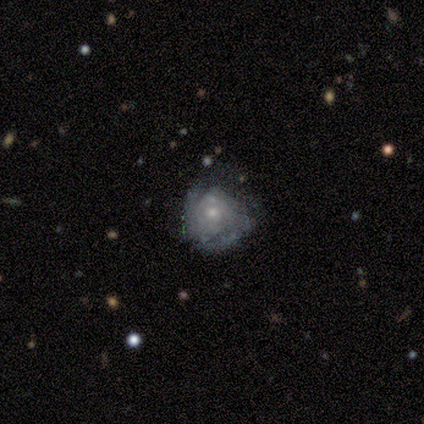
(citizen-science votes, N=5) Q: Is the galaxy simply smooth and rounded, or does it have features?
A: featured or disk — 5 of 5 (100%).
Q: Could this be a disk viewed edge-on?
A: no — 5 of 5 (100%).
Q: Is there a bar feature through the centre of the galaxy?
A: no — 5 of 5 (100%).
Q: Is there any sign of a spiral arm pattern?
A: yes — 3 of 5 (60%).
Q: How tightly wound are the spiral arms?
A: tight — 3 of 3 (100%).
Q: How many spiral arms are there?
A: can't tell — 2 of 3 (67%).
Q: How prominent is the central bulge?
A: small — 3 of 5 (60%).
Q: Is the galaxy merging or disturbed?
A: none — 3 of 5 (60%).